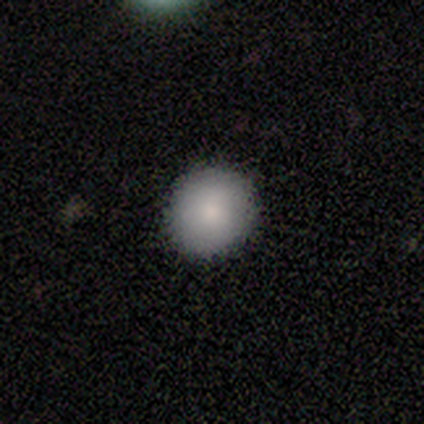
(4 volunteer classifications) A smooth galaxy with no disk features (100%) that is round (75%). Merging: none (50%, tied with minor disturbance).